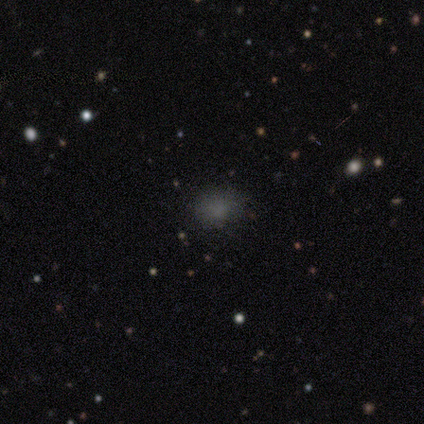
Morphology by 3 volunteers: type=smooth (67%); roundness=round (100%); merging=none (67%).